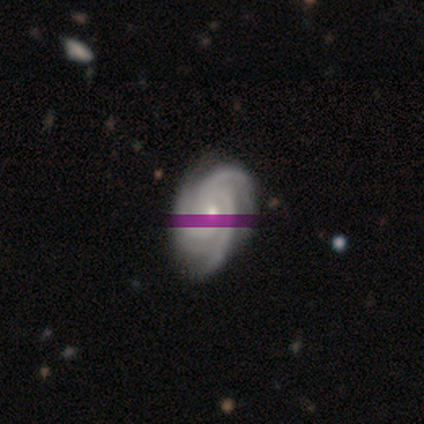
Overall: featured or disk (87%). Edge-on disk: no (98%). Bar: no (84%). Spiral arms: yes (100%). Spiral arm count: 3 (91%). Spiral winding: tight (68%; medium 32%). Bulge size: moderate (52%; small 45%). Merging: none (90%).